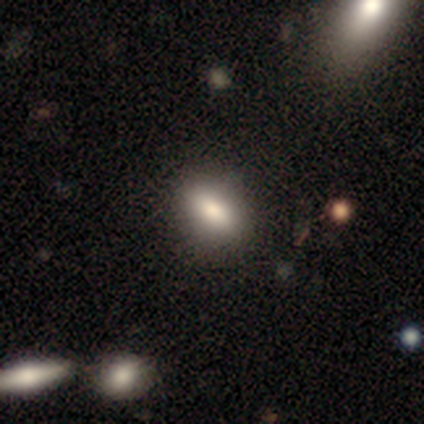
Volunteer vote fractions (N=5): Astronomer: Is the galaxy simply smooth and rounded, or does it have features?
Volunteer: smooth — 80%.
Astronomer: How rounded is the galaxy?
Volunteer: in between — 100%.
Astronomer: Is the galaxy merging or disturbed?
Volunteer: none — 100%.